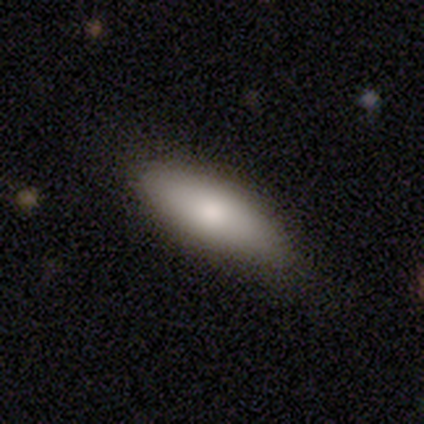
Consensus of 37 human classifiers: smooth 81%, featured or disk 19%, star or artifact 0%. Down the decision tree: how rounded — in between (80%); merging — none (81%).